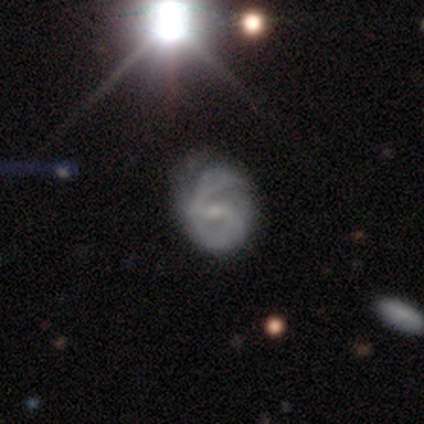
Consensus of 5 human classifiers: This is clearly a featured or disk galaxy (80%). It is clearly not viewed edge-on (100%). Bar: possibly weak (50%, tied with no). Spiral arm pattern: clearly yes (100%). Spiral arm count: likely 2 (75%). Spiral winding: possibly tight (50%, tied with medium). Central bulge: possibly small (50%). Merging: possibly none (50%, tied with minor disturbance).